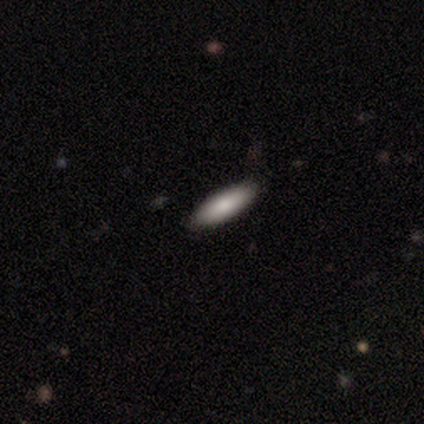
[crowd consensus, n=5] Smooth or featured? 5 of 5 (100%) said smooth. How rounded? 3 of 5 (60%) said cigar-shaped. Merging? 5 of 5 (100%) said none.